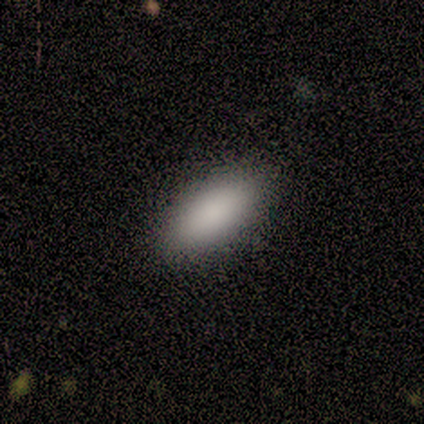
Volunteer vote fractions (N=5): This appears to be a smooth galaxy with no disk features (100%) that is in between round and cigar-shaped (80%). Merging: none (80%).